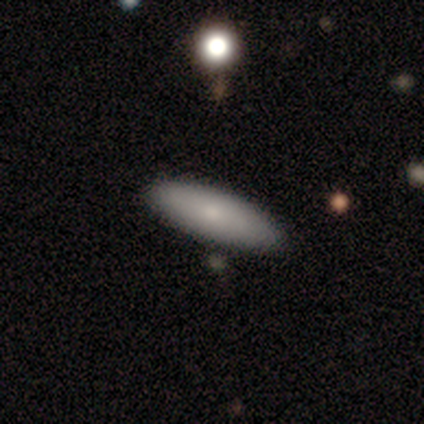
Q: Smooth or featured?
A: smooth (67%); runner-up: featured or disk (33%)
Q: How rounded?
A: in between (75%); runner-up: cigar-shaped (25%)
Q: Merging?
A: none (100%)